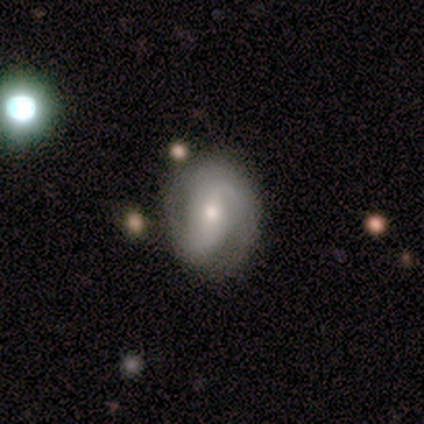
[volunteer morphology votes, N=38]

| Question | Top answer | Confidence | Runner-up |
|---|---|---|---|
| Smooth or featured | featured or disk | 76% | smooth (16%) |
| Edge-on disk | no | 100% | — |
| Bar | no | 45% | strong (31%) |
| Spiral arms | yes | 97% | no (3%) |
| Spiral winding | medium | 57% | tight (25%) |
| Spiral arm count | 2 | 82% | 1 (7%) |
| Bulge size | moderate | 52% | small (41%) |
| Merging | none | 71% | minor disturbance (20%) |